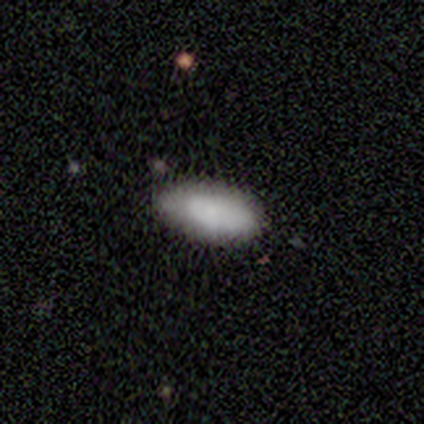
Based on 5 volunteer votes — Smooth or featured? 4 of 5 (80%) said smooth. How rounded? 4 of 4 (100%) said in between. Merging? 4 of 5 (80%) said none.